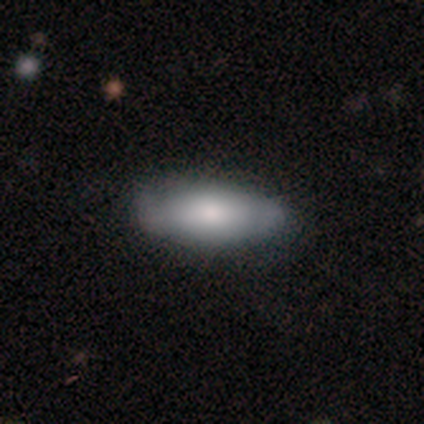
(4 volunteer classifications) smooth-or-featured: featured or disk: 75% | smooth: 25% | star or artifact: 0%
  disk-edge-on: no: 100% | yes: 0%
    bar: no: 100% | strong: 0% | weak: 0%
    has-spiral-arms: no: 67% | yes: 33%
    bulge-size: large: 33% (tied) | moderate: 33% (tied) | small: 33% (tied) | dominant: 0% | none: 0%
  merging: none: 75% | minor disturbance: 25% | major disturbance: 0% | merger: 0%